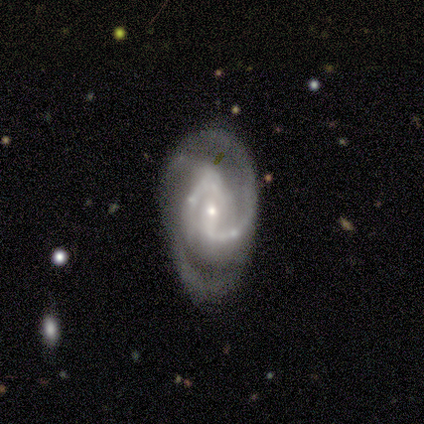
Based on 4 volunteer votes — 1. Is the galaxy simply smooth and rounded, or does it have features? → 75% featured or disk, 25% star or artifact, 0% smooth.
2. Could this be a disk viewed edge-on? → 100% no, 0% yes.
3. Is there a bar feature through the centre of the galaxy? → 67% strong, 33% weak, 0% no.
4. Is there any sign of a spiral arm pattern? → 100% yes, 0% no.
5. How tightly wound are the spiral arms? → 100% medium, 0% tight, 0% loose.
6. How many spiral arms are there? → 67% 2, 33% 3, 0% 1, 0% 4, 0% more than 4, 0% can't tell.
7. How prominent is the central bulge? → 67% small, 33% moderate, 0% dominant, 0% large, 0% none.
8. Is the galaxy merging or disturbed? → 67% minor disturbance, 33% none, 0% major disturbance, 0% merger.